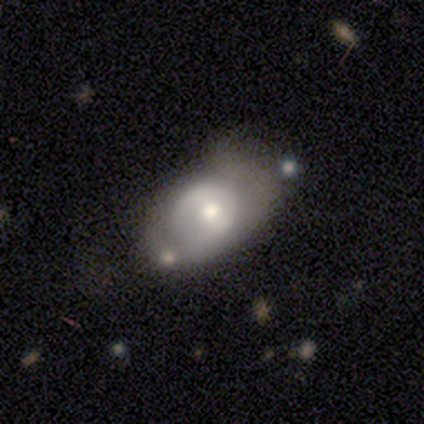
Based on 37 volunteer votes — A featured or disk galaxy (54%) with no bar (45%), no spiral arms (60%) and a moderate central bulge (45%). Merging: none (37%).